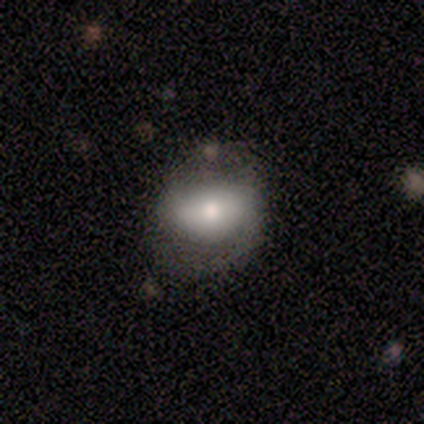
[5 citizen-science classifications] smooth_or_featured: featured or disk (p=0.60) [alt: smooth p=0.40]
disk_edge_on: no (p=1.00)
bar: strong (p=0.33) [tied with: weak p=0.33, no p=0.33]
has_spiral_arms: yes (p=1.00)
spiral_winding: loose (p=0.67) [alt: medium p=0.33]
spiral_arm_count: 1 (p=0.33) [tied with: 2 p=0.33, can't tell p=0.33]
bulge_size: moderate (p=0.67) [alt: small p=0.33]
merging: minor disturbance (p=0.60) [alt: none p=0.20]